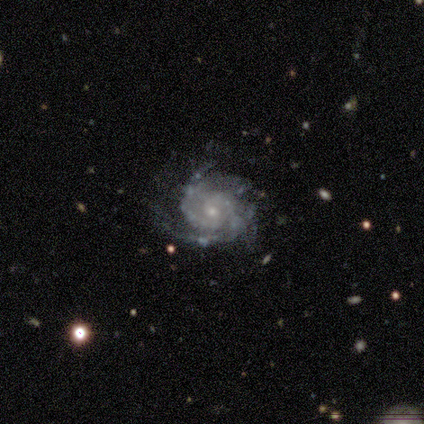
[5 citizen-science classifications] Q: Smooth or featured?
A: featured or disk (80%); runner-up: smooth (20%)
Q: Edge-on disk?
A: no (100%)
Q: Bar?
A: no (75%); runner-up: strong (25%)
Q: Spiral arms?
A: yes (100%)
Q: Spiral winding?
A: tight (50%); tied with: medium (50%)
Q: Spiral arm count?
A: 3 (50%); tied with: can't tell (50%)
Q: Bulge size?
A: small (75%); runner-up: moderate (25%)
Q: Merging?
A: none (100%)